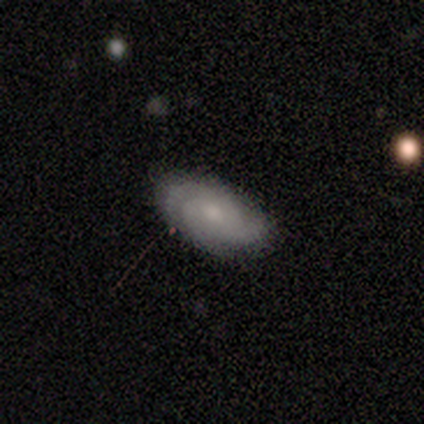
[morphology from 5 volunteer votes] Q: Smooth or featured?
A: featured or disk (60%); runner-up: smooth (40%)
Q: Edge-on disk?
A: no (100%)
Q: Bar?
A: no (67%); runner-up: weak (33%)
Q: Spiral arms?
A: yes (100%)
Q: Spiral winding?
A: medium (67%); runner-up: tight (33%)
Q: Spiral arm count?
A: 3 (33%); tied with: 4 (33%); can't tell (33%)
Q: Bulge size?
A: moderate (67%); runner-up: small (33%)
Q: Merging?
A: none (80%); runner-up: minor disturbance (20%)